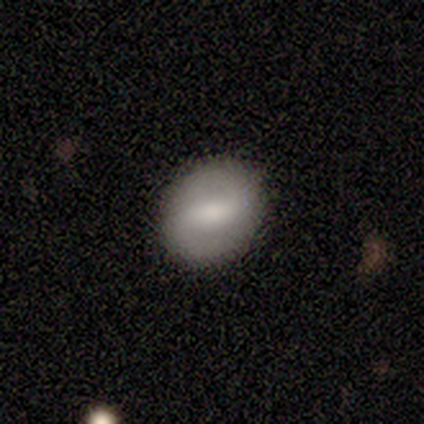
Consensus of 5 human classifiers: Overall: featured or disk (60%; star or artifact 40%). Edge-on disk: no (100%). Bar: strong (67%; weak 33%). Spiral arms: no (67%; yes 33%). Bulge size: moderate (33%, tied with small and none). Merging: none (100%).